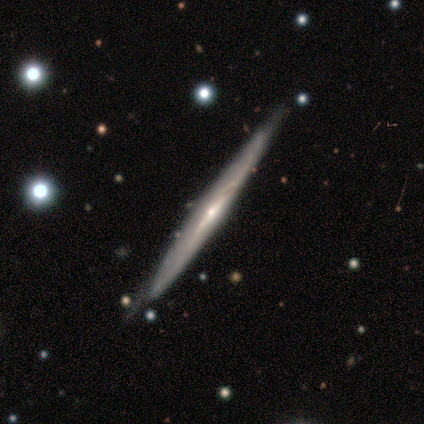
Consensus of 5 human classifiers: smooth_or_featured: featured or disk (p=0.80) [alt: smooth p=0.20]
disk_edge_on: yes (p=1.00)
edge_on_bulge: rounded (p=0.75) [alt: none p=0.25]
merging: none (p=0.80) [alt: minor disturbance p=0.20]